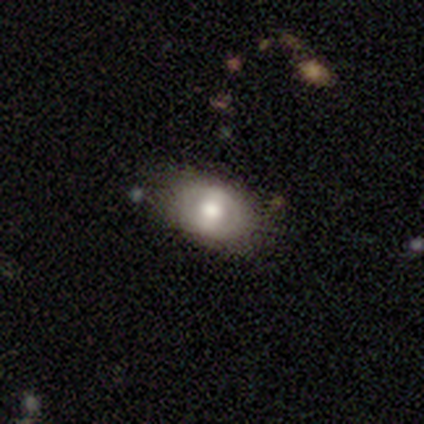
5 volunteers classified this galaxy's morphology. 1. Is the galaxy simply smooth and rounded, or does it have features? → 60% smooth, 40% featured or disk, 0% star or artifact.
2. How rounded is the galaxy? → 100% in between, 0% round, 0% cigar-shaped.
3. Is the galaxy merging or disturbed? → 60% none, 40% minor disturbance, 0% major disturbance, 0% merger.